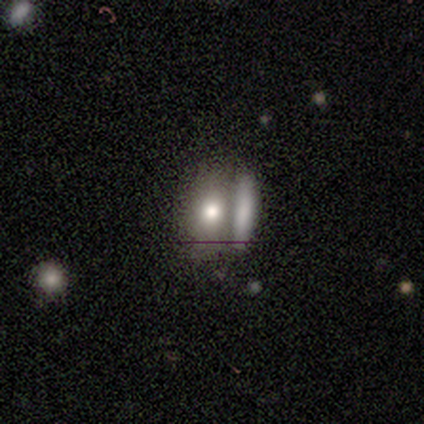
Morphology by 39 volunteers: A smooth galaxy with no disk features (79%) that is in between round and cigar-shaped (81%).

Vote fractions:
- Smooth or featured? smooth: 79% / featured or disk: 15% / star or artifact: 5%
- How rounded? in between: 81% / cigar-shaped: 13% / round: 6%
- Merging? merger: 76% / none: 0% / minor disturbance: 0% / major disturbance: 0%